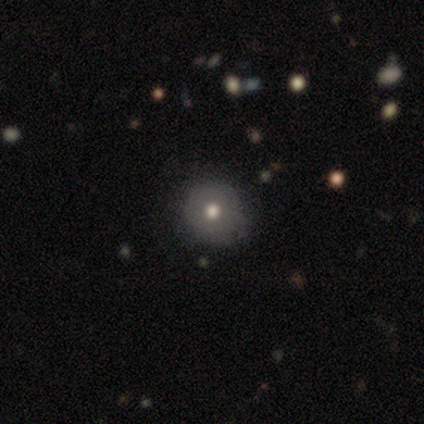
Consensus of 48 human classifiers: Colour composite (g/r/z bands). It shows a smooth galaxy with no disk features (62%) that is round (97%). Merging: none (80%).